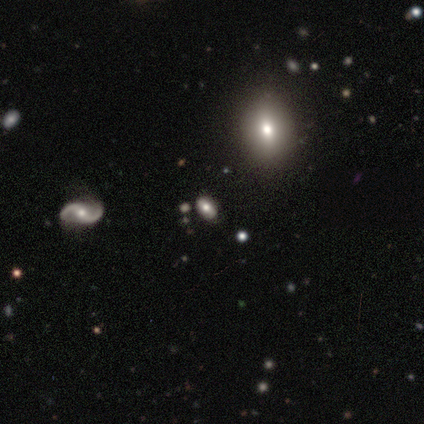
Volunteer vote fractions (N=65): Q: Smooth or featured?
A: smooth (51%); runner-up: featured or disk (25%)
Q: How rounded?
A: in between (100%)
Q: Merging?
A: none (84%); runner-up: minor disturbance (12%)